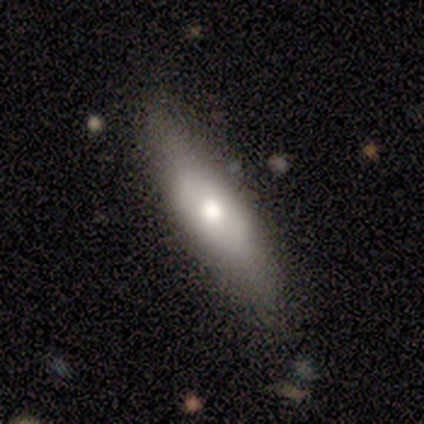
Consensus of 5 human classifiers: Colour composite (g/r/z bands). It shows a smooth galaxy with no disk features (60%) that is cigar-shaped (100%). Merging: none (80%).